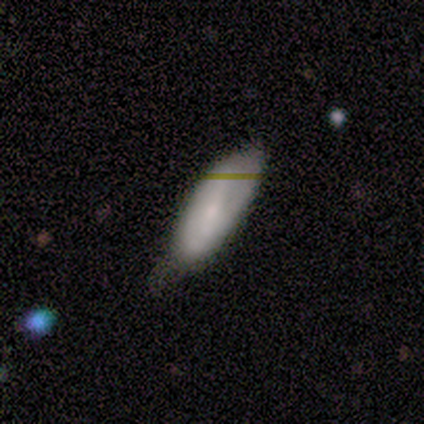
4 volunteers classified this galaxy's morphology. A smooth galaxy with no disk features (50%, tied with featured or disk) that is in between round and cigar-shaped (100%). Merging: none (50%, tied with minor disturbance).